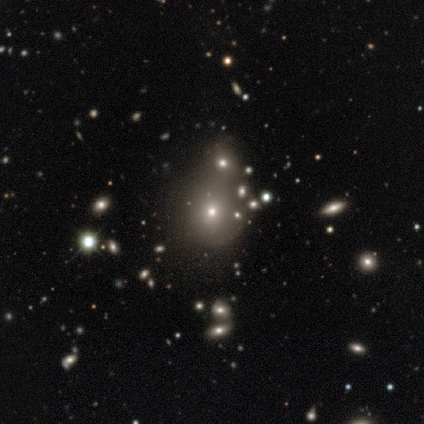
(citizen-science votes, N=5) Smooth or featured?
  - smooth: 60% *
  - featured or disk: 20%
  - star or artifact: 20%
How rounded?
  - round: 67% *
  - in between: 33%
  - cigar-shaped: 0%
Merging?
  - none: 75% *
  - merger: 25%
  - minor disturbance: 0%
  - major disturbance: 0%